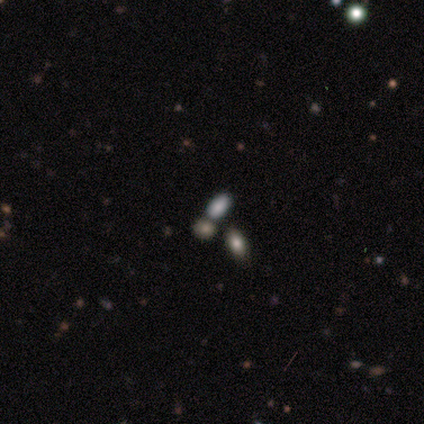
Smooth or featured: smooth — 80% (featured or disk — 20%)
How rounded: in between — 75% (round — 25%)
Merging: none — 40% (tied with merger — 40%)